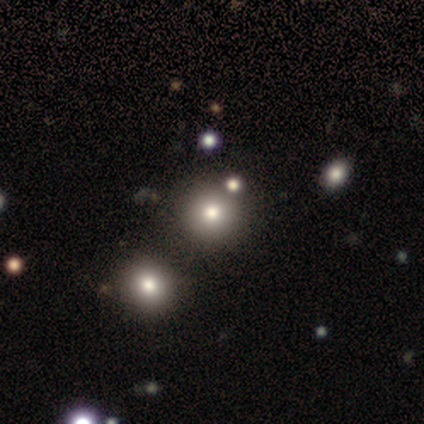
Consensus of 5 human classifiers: A smooth galaxy with no disk features (80%) that is round (100%). Merging: none (100%).